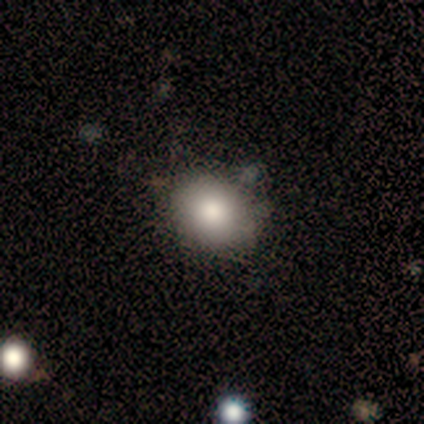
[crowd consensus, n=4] smooth_or_featured: smooth (p=0.50) [alt: featured or disk p=0.25]
how_rounded: round (p=1.00)
merging: none (p=0.67) [alt: minor disturbance p=0.33]